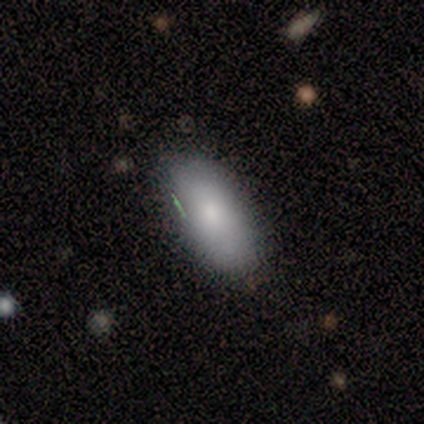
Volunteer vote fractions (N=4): smooth 100%, featured or disk 0%, star or artifact 0%. Down the decision tree: how rounded — in between (100%); merging — none (100%).